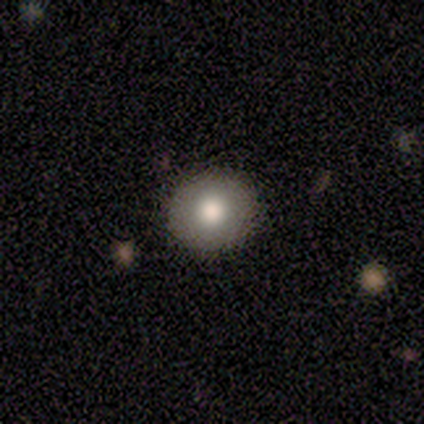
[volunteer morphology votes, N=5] A smooth galaxy with no disk features (80%) that is round (100%). Merging: none (100%).